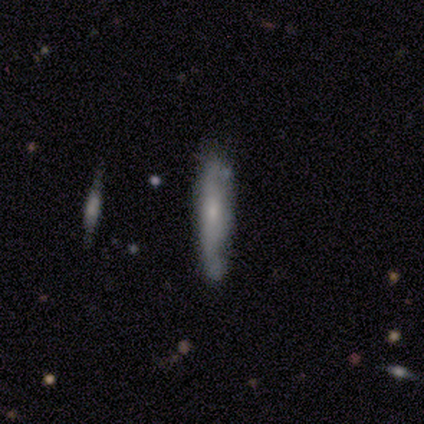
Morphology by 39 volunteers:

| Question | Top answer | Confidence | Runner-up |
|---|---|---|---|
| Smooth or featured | smooth | 56% | featured or disk (41%) |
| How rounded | cigar-shaped | 86% | in between (14%) |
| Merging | none | 63% | minor disturbance (29%) |